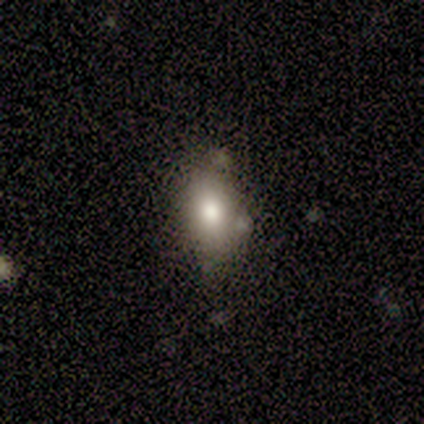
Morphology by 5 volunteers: Smooth or featured?
  - smooth: 100% *
  - featured or disk: 0%
  - star or artifact: 0%
How rounded?
  - in between: 80% *
  - round: 20%
  - cigar-shaped: 0%
Merging?
  - none: 60% *
  - minor disturbance: 40%
  - major disturbance: 0%
  - merger: 0%